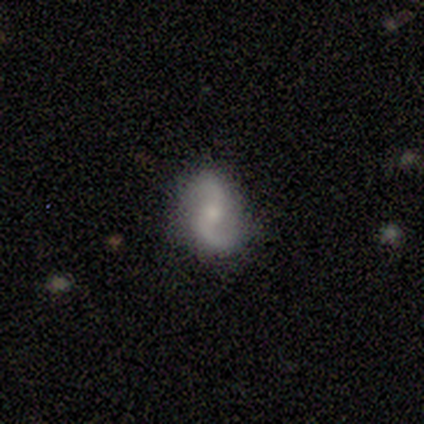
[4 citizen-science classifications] Overall: featured or disk (75%). Edge-on disk: no (100%). Bar: no (67%; weak 33%). Spiral arms: yes (100%). Spiral arm count: 2 (100%). Spiral winding: loose (67%; medium 33%). Bulge size: none (67%; moderate 33%). Merging: none (75%).